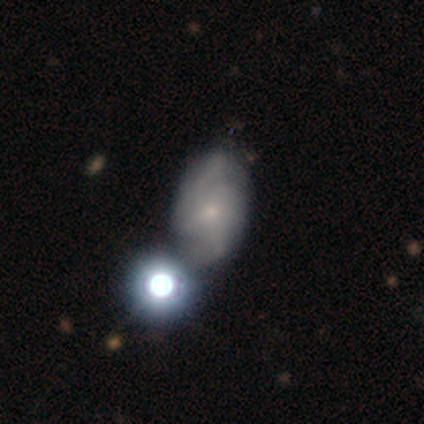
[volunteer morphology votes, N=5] Smooth or featured? featured or disk (60%)
Edge-on disk? no (100%)
Bar? weak (67%)
Spiral arms? yes (67%)
Spiral winding? medium (100%)
Spiral arm count? 2 (50%, tied with can't tell)
Bulge size? moderate (33%, tied with small and none)
Merging? none (60%)